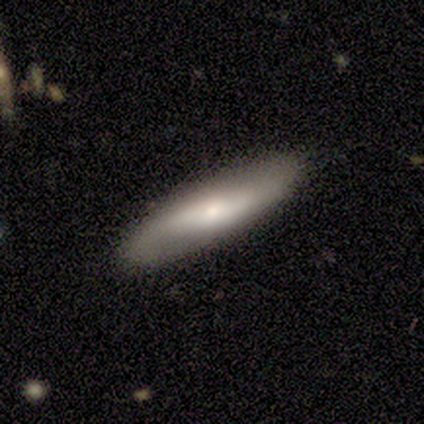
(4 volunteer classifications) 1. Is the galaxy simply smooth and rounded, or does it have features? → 75% featured or disk, 25% star or artifact, 0% smooth.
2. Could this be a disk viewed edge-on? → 67% no, 33% yes.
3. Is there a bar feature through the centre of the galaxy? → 100% weak, 0% strong, 0% no.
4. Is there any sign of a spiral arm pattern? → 50% yes (tied), 50% no (tied).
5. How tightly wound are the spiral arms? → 100% loose, 0% tight, 0% medium.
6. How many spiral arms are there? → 100% 2, 0% 1, 0% 3, 0% 4, 0% more than 4, 0% can't tell.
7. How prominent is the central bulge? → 50% moderate (tied), 50% small (tied), 0% dominant, 0% large, 0% none.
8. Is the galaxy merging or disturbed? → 100% none, 0% minor disturbance, 0% major disturbance, 0% merger.